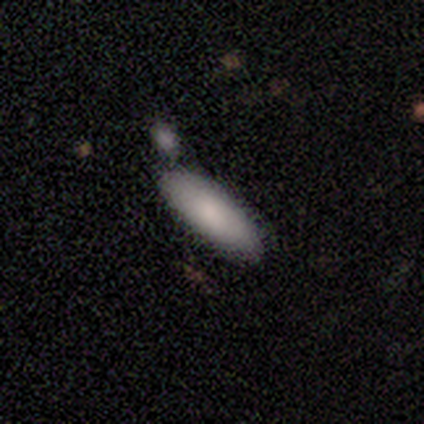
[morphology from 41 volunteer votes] Smooth or featured? 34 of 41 (83%) said smooth. How rounded? 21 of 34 (62%) said in between. Merging? 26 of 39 (67%) said none.